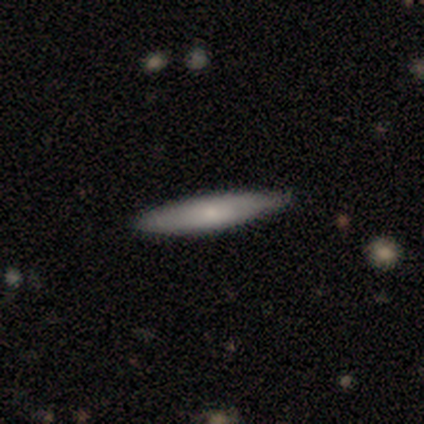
Smooth or featured? smooth (67%)
How rounded? cigar-shaped (100%)
Merging? none (100%)